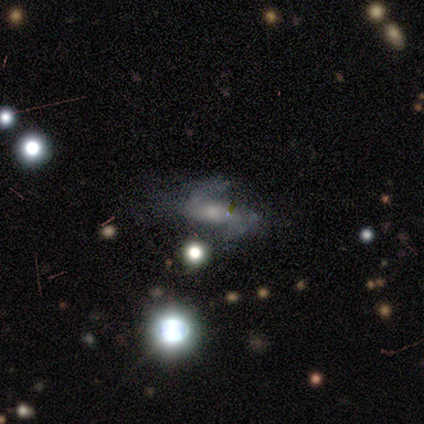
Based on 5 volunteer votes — A featured or disk galaxy (80%) with a strong bar (33%, tied with weak and no), 2 (67%) medium (100%) spiral arms (100%) and a small central bulge (67%). Merging: major disturbance (50%).